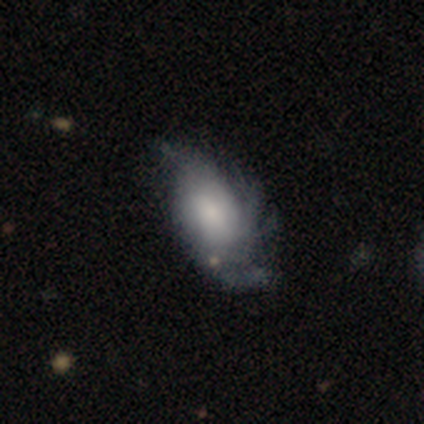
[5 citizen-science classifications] Morphology: type=featured or disk (100%); edge-on=no (100%); bar=no (60%); spiral arms=yes (80%); winding=tight (50%, tied with loose); arm count=2 (50%); bulge=moderate (40%, tied with small); merging=minor disturbance (60%).